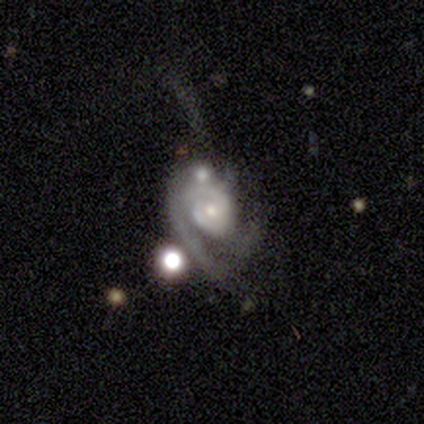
Q: Smooth or featured?
A: featured or disk (95%); runner-up: smooth (3%)
Q: Edge-on disk?
A: no (97%); runner-up: yes (3%)
Q: Bar?
A: no (75%); runner-up: weak (22%)
Q: Spiral arms?
A: yes (100%)
Q: Spiral winding?
A: medium (53%); runner-up: tight (39%)
Q: Spiral arm count?
A: can't tell (33%); runner-up: 2 (31%)
Q: Bulge size?
A: small (64%); runner-up: moderate (31%)
Q: Merging?
A: none (37%); runner-up: minor disturbance (24%)